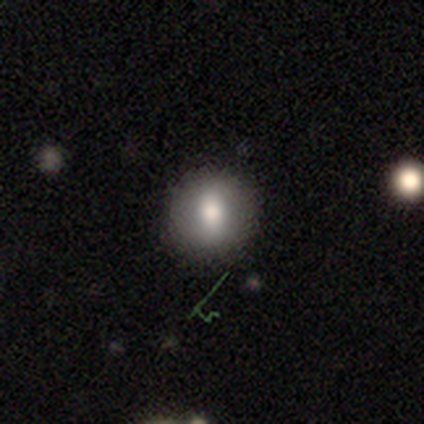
This is likely a smooth galaxy (63%). How rounded: likely round (73%). Merging: clearly none (80%).